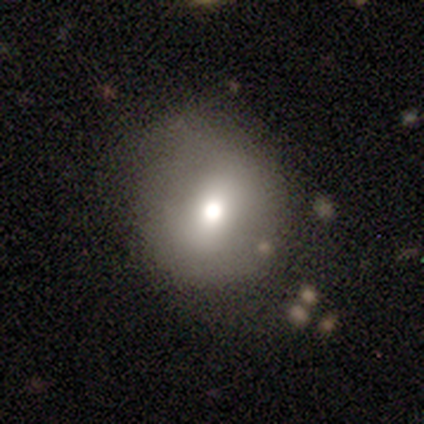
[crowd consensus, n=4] Smooth or featured: smooth — 75% (featured or disk — 25%)
How rounded: round — 100%
Merging: none — 75% (major disturbance — 25%)